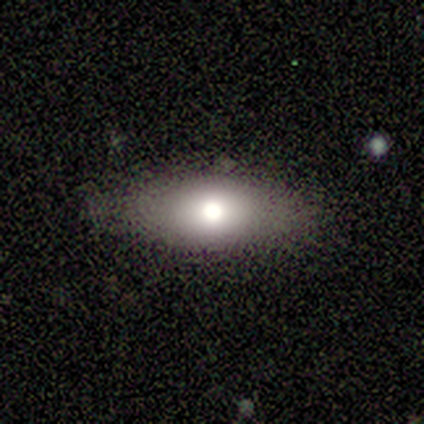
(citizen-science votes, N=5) A smooth galaxy with no disk features (60%) that is in between round and cigar-shaped (100%). Merging: none (75%).